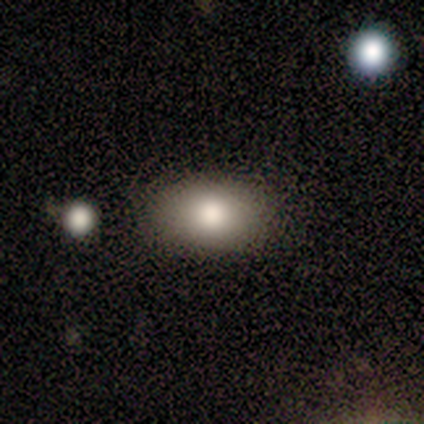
This is clearly a smooth galaxy (80%). How rounded: clearly in between (100%). Merging: clearly none (100%).